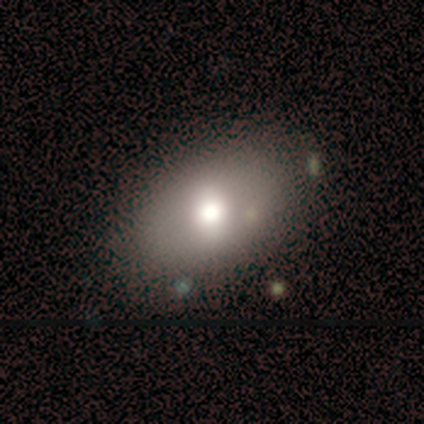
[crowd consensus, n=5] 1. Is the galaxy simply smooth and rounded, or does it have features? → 80% smooth, 20% featured or disk, 0% star or artifact.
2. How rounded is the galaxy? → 100% in between, 0% round, 0% cigar-shaped.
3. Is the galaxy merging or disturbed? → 60% minor disturbance, 40% none, 0% major disturbance, 0% merger.